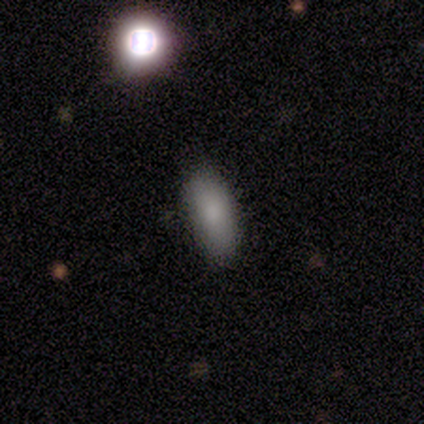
A smooth galaxy with no disk features (75%) that is in between round and cigar-shaped (100%). Merging: none (100%).